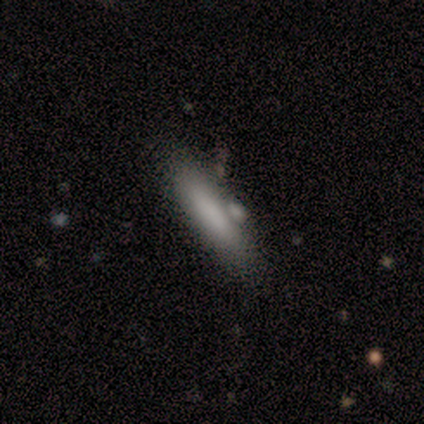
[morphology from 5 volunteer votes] Smooth or featured? 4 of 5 (80%) said smooth. How rounded? 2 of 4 (50%, tied with cigar-shaped) said in between. Merging? 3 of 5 (60%) said none.